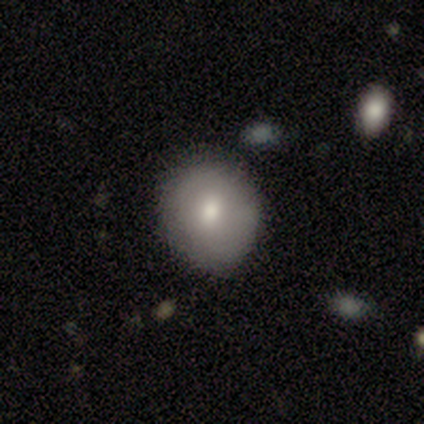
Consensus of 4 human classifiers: A smooth galaxy with no disk features (50%, tied with featured or disk) that is round (50%, tied with in between). Merging: none (50%).